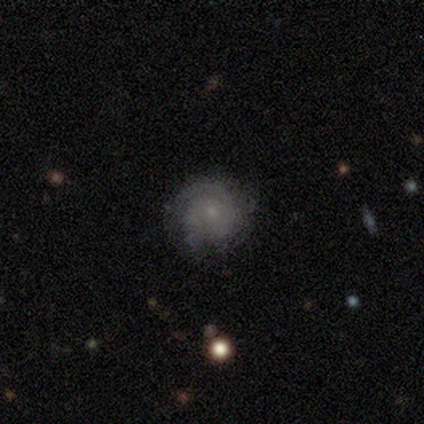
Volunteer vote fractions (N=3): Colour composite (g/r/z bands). It shows a smooth galaxy with no disk features (67%) that is round (50%, tied with in between). Merging: none (33%, tied with minor disturbance and major disturbance).